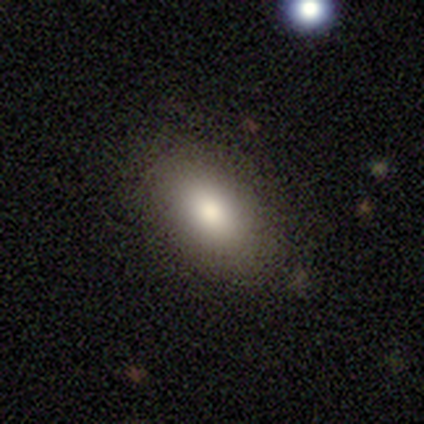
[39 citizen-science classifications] Overall: smooth (90%). How rounded: in between (97%). Merging: none (81%).